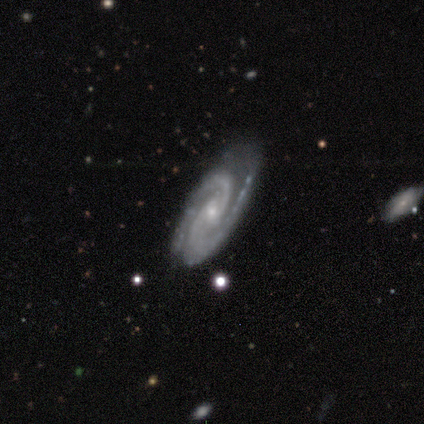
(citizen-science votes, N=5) Smooth or featured?
  - featured or disk: 100% *
  - smooth: 0%
  - star or artifact: 0%
Edge-on disk?
  - no: 100% *
  - yes: 0%
Bar?
  - no: 60% *
  - strong: 20%
  - weak: 20%
Spiral arms?
  - yes: 100% *
  - no: 0%
Spiral winding?
  - medium: 80% *
  - tight: 20%
  - loose: 0%
Spiral arm count?
  - 2: 100% *
  - 1: 0%
  - 3: 0%
  - 4: 0%
  - more than 4: 0%
  - can't tell: 0%
Bulge size?
  - small: 80% *
  - moderate: 20%
  - dominant: 0%
  - large: 0%
  - none: 0%
Merging?
  - none: 100% *
  - minor disturbance: 0%
  - major disturbance: 0%
  - merger: 0%